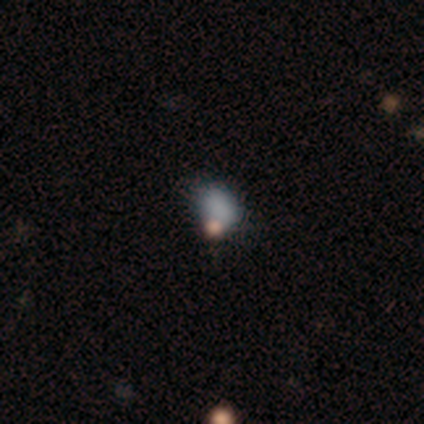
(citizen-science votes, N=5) Smooth or featured?
  - smooth: 100% *
  - featured or disk: 0%
  - star or artifact: 0%
How rounded?
  - in between: 80% *
  - round: 20%
  - cigar-shaped: 0%
Merging?
  - none: 100% *
  - minor disturbance: 0%
  - major disturbance: 0%
  - merger: 0%